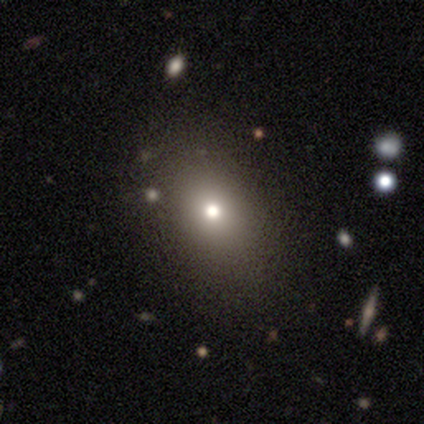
Volunteers were most divided on "smooth or featured": star or artifact: 75%, smooth: 25%, featured or disk: 0%.